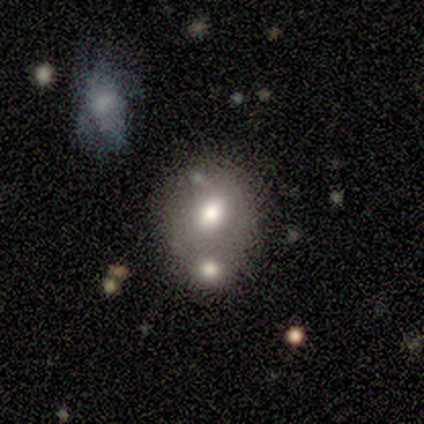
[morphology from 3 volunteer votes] This is clearly a smooth galaxy (100%). How rounded: likely in between (67%). Merging: likely merger (67%).